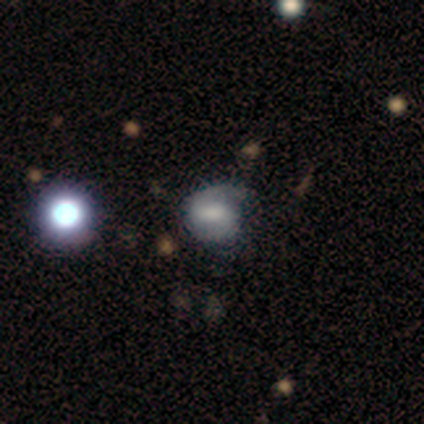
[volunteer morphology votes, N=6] Volunteers were most divided on "smooth or featured": featured or disk: 50%, smooth: 33%, star or artifact: 17%. More confident: edge-on disk — no (100%); spiral arms — yes (100%); spiral winding — tight (100%); bar — weak (67%); spiral arm count — 2 (67%); bulge size — moderate (67%); merging — none (60%).